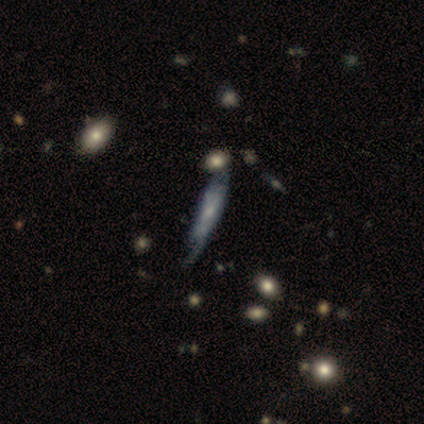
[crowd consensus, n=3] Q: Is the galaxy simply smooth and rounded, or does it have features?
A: featured or disk — 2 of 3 (67%).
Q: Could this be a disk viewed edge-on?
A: no — 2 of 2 (100%).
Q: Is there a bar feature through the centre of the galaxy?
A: no — 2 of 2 (100%).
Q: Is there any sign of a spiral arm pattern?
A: yes — 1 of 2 (50%, tied with no).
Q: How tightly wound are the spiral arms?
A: tight — 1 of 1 (100%).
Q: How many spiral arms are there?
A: can't tell — 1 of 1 (100%).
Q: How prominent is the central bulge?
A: moderate — 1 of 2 (50%, tied with none).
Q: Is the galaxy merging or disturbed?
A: minor disturbance — 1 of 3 (33%, tied with major disturbance and merger).